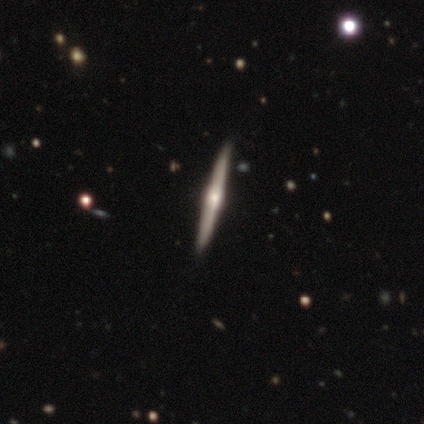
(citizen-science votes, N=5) This appears to be a featured or disk galaxy (100%) viewed edge-on (100%) with a rounded central bulge (60%). Merging: none (100%).